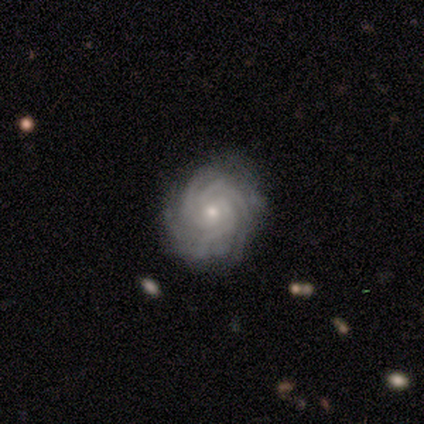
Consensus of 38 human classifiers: This appears to be a featured or disk galaxy (95%) with no bar (94%), 4 (34%) tight (97%) spiral arms (97%) and a small central bulge (69%). Merging: none (78%).